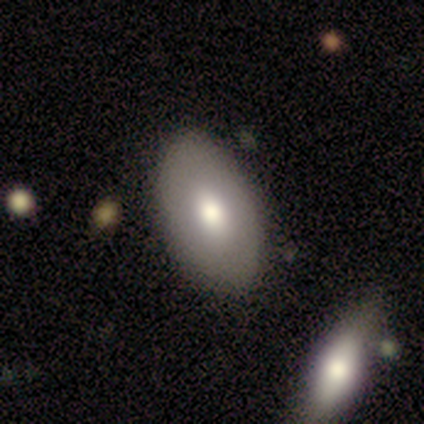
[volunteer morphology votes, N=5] smooth 60%, featured or disk 20%, star or artifact 20%. Down the decision tree: how rounded — in between (100%); merging — none (50%).